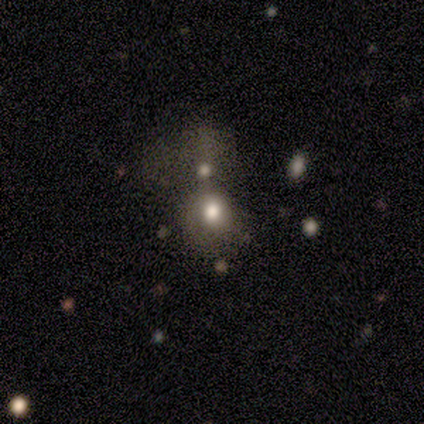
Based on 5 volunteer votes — Smooth or featured? 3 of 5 (60%) said smooth. How rounded? 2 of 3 (67%) said round. Merging? 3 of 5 (60%) said merger.